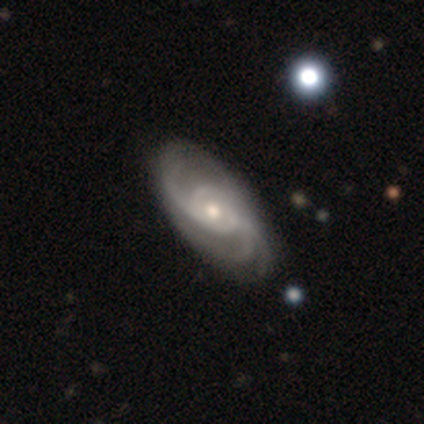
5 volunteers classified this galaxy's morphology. This appears to be a featured or disk galaxy (100%) with no bar (60%), 3 (40%) medium (80%) spiral arms (100%) and a small central bulge (60%). Merging: none (100%).